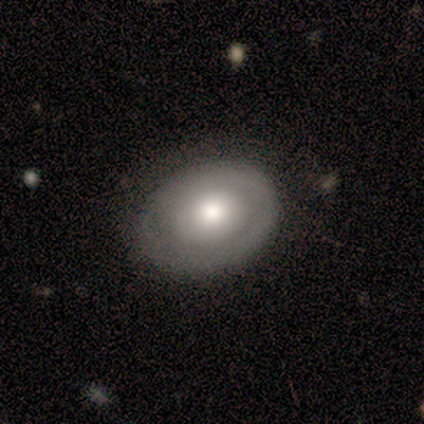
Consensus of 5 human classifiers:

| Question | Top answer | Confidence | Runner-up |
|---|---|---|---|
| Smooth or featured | featured or disk | 60% | smooth (20%) |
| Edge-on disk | no | 100% | — |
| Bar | no | 67% | strong (33%) |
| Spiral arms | yes | 67% | no (33%) |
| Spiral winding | tight | 100% | — |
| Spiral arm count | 1 | 50% | tied: 4 (50%) |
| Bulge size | large | 67% | moderate (33%) |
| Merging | none | 75% | merger (25%) |